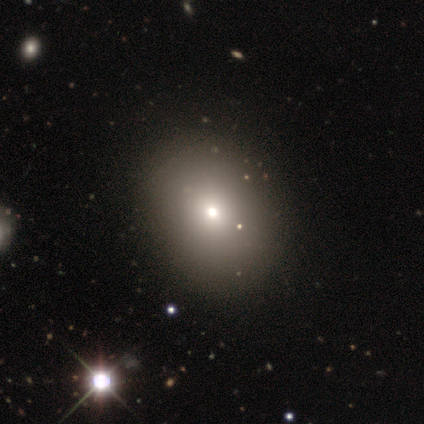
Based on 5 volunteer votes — Overall: smooth (80%). How rounded: round (50%, tied with in between). Merging: none (80%).